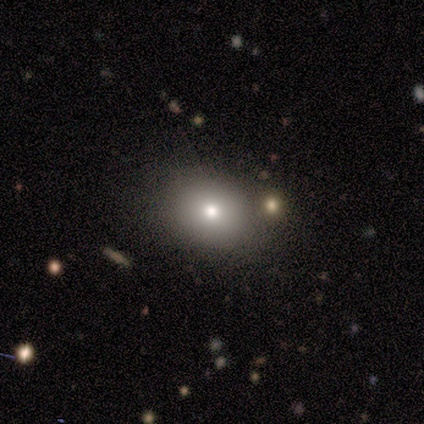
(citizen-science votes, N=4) Smooth or featured? smooth (75%)
How rounded? round (100%)
Merging? none (100%)